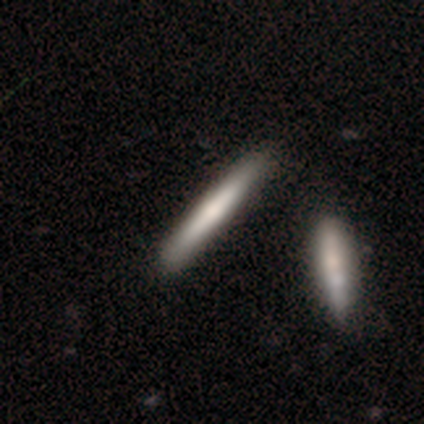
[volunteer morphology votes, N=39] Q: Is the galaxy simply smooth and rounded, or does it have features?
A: featured or disk — 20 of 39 (51%).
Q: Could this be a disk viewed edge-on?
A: yes — 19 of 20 (95%).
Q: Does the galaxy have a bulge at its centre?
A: rounded — 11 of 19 (58%).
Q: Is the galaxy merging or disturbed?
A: none — 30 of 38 (79%).